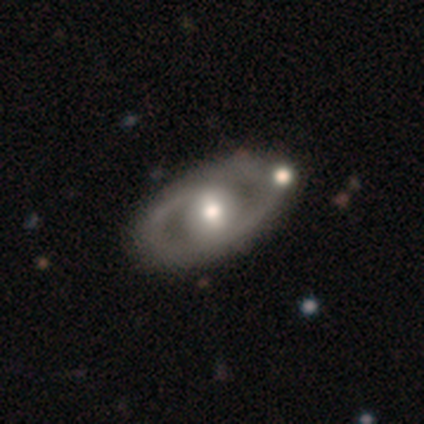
Smooth or featured? 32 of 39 (82%) said featured or disk. Edge-on disk? 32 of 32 (100%) said no. Bar? 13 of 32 (41%) said no. Spiral arms? 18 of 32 (56%) said no. Bulge size? 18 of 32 (56%) said moderate. Merging? 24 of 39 (62%) said none.